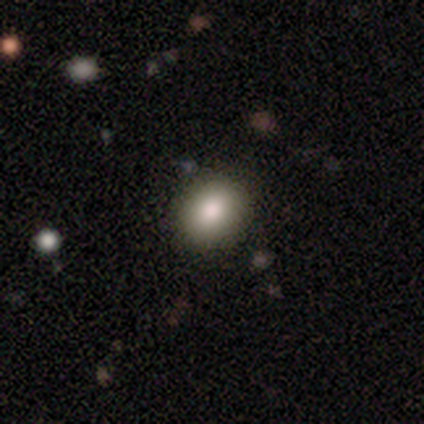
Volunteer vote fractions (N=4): smooth 100%, featured or disk 0%, star or artifact 0%. Down the decision tree: how rounded — round (75%); merging — none (100%).